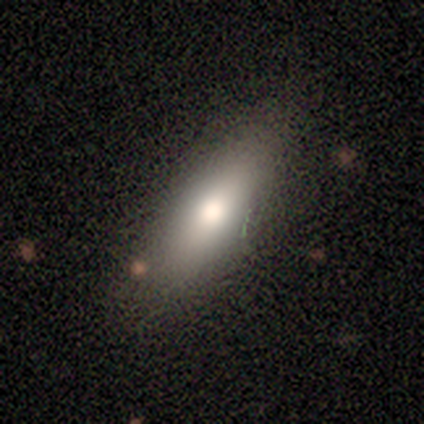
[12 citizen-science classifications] Smooth or featured?
  - smooth: 67% *
  - featured or disk: 25%
  - star or artifact: 8%
How rounded?
  - in between: 50% * (tied)
  - cigar-shaped: 50% * (tied)
  - round: 0%
Merging?
  - none: 91% *
  - minor disturbance: 9%
  - major disturbance: 0%
  - merger: 0%